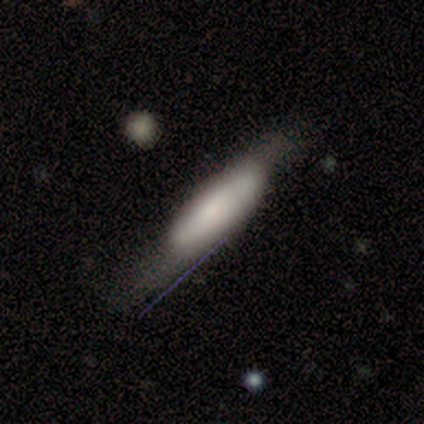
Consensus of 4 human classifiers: Overall: smooth (100%). How rounded: cigar-shaped (75%). Merging: none (50%, tied with minor disturbance).